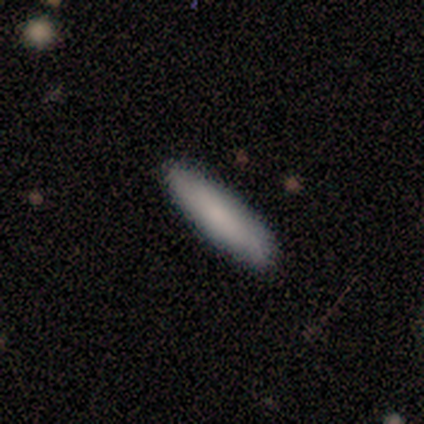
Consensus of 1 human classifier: Smooth or featured? smooth (100%)
How rounded? cigar-shaped (100%)
Merging? none (100%)